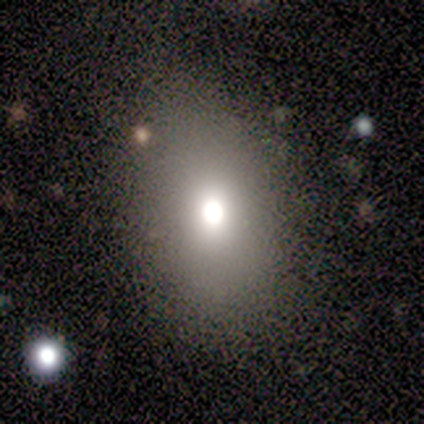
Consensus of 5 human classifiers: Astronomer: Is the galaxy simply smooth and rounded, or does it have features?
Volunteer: smooth — 80%.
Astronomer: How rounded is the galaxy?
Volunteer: round — 50%, tied with in between at 50%.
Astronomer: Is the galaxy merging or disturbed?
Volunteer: none — 100%.